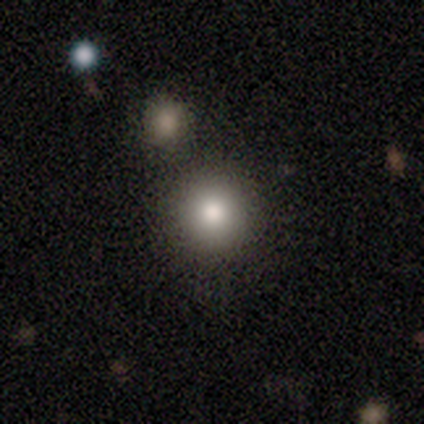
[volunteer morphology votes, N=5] Q: Smooth or featured?
A: smooth (100%)
Q: How rounded?
A: round (100%)
Q: Merging?
A: none (100%)